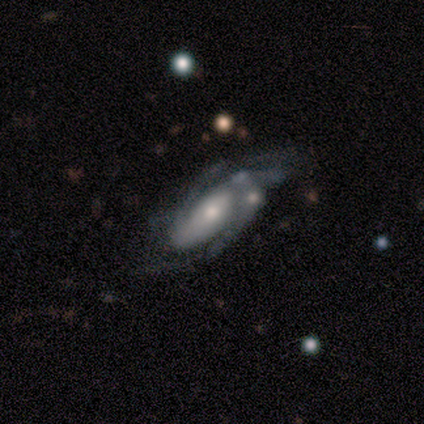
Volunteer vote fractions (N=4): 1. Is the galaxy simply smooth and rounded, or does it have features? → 75% featured or disk, 25% smooth, 0% star or artifact.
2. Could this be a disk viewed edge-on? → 100% no, 0% yes.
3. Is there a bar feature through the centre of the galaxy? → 100% no, 0% strong, 0% weak.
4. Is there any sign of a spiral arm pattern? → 100% yes, 0% no.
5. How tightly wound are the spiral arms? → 67% tight, 33% loose, 0% medium.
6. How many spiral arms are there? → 67% 3, 33% 2, 0% 1, 0% 4, 0% more than 4, 0% can't tell.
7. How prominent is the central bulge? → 67% moderate, 33% small, 0% dominant, 0% large, 0% none.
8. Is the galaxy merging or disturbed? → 75% minor disturbance, 25% major disturbance, 0% none, 0% merger.